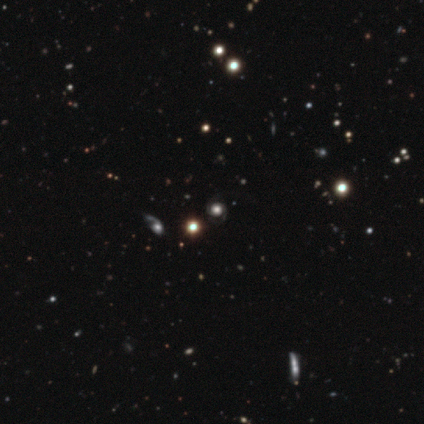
Smooth or featured? 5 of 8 (62%) said featured or disk. Edge-on disk? 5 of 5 (100%) said no. Bar? 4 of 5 (80%) said no. Spiral arms? 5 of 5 (100%) said yes. Spiral winding? 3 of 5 (60%) said medium. Spiral arm count? 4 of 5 (80%) said 2. Bulge size? 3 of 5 (60%) said dominant. Merging? 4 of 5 (80%) said none.